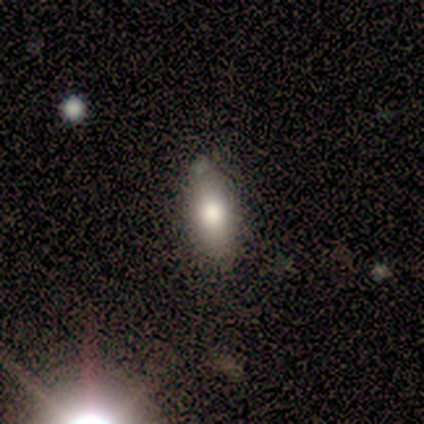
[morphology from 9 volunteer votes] Smooth or featured? 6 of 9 (67%) said smooth. How rounded? 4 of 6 (67%) said in between. Merging? 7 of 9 (78%) said none.